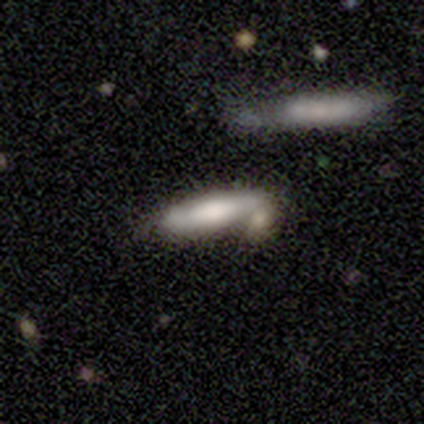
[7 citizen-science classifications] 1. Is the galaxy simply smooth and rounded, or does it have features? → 71% smooth, 29% featured or disk, 0% star or artifact.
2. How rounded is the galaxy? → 100% cigar-shaped, 0% round, 0% in between.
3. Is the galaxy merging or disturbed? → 100% none, 0% minor disturbance, 0% major disturbance, 0% merger.